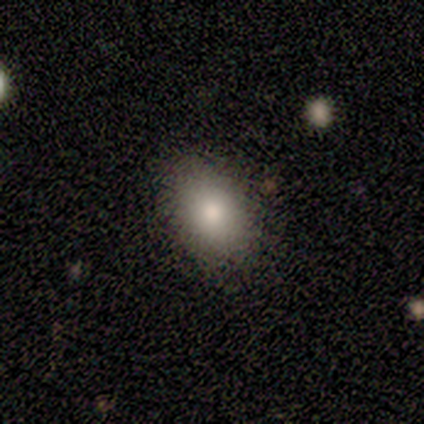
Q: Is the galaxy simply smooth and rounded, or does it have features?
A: smooth — 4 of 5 (80%).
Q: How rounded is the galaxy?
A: in between — 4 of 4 (100%).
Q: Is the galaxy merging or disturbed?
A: none — 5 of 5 (100%).